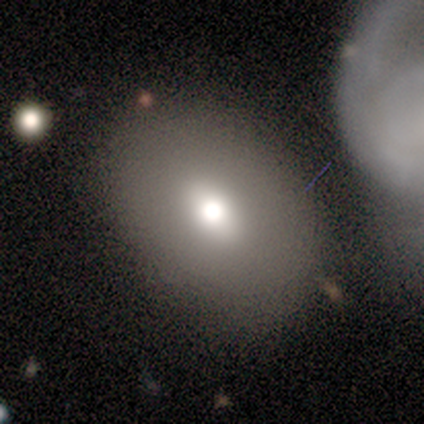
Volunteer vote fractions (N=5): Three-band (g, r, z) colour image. It shows a smooth galaxy with no disk features (80%) that is in between round and cigar-shaped (75%). Merging: none (80%).